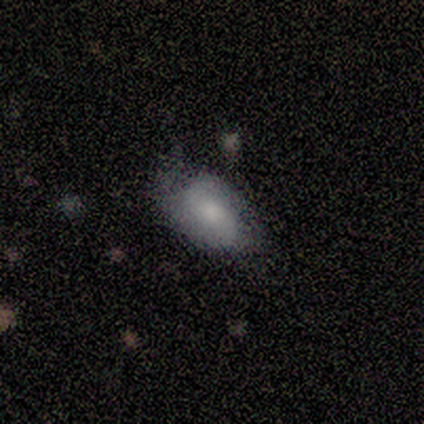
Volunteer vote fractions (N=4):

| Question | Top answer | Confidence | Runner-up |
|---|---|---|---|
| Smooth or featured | featured or disk | 50% | smooth (25%) |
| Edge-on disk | no | 100% | — |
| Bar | no | 100% | — |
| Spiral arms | yes | 100% | — |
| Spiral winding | loose | 100% | — |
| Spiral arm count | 2 | 100% | — |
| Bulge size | moderate | 100% | — |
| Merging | none | 67% | major disturbance (33%) |